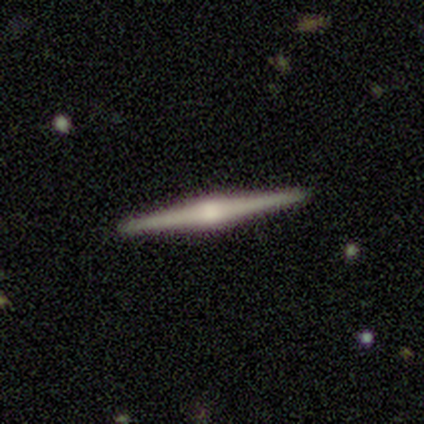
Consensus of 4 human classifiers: Overall: featured or disk (100%). Edge-on disk: yes (100%). Edge-on bulge: rounded (100%). Merging: none (100%).